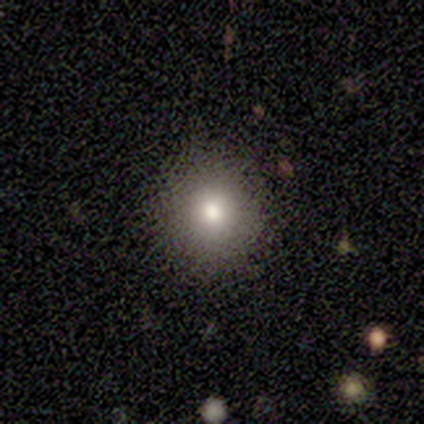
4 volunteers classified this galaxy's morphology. Overall: smooth (75%). How rounded: round (100%). Merging: none (100%).